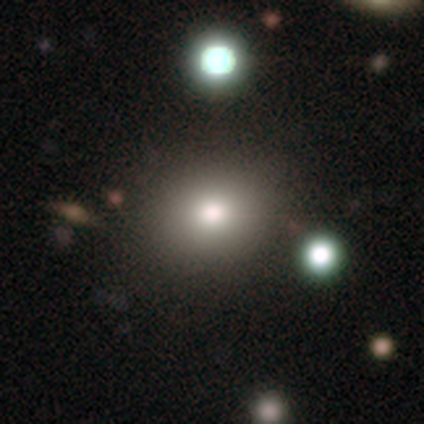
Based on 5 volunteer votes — Smooth or featured? smooth (60%)
How rounded? round (67%)
Merging? none (100%)